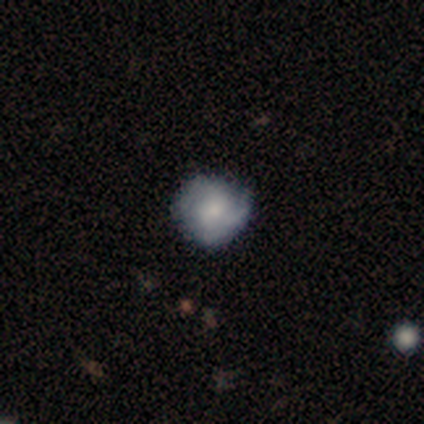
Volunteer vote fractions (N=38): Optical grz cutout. It shows a featured or disk galaxy (53%) with no bar (74%), 2 (65%) tight (65%) spiral arms (89%) and a small central bulge (58%). Merging: none (72%).